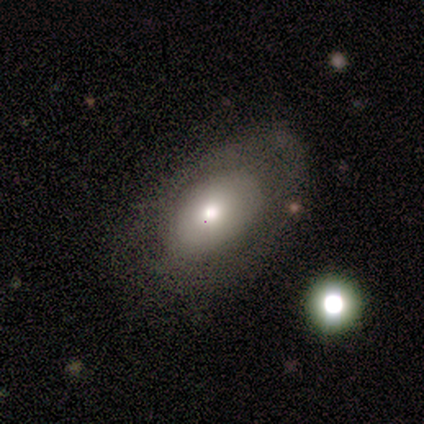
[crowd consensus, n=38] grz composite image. It shows a smooth galaxy with no disk features (68%) that is in between round and cigar-shaped (85%). Merging: none (70%).